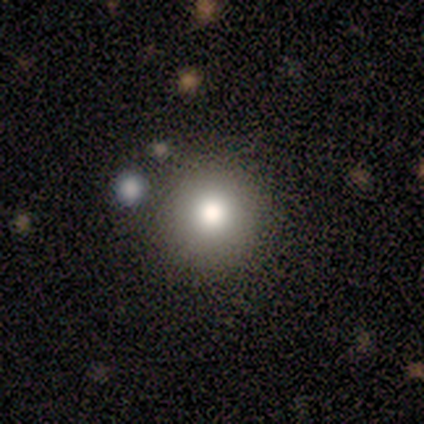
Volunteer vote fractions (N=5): Smooth or featured?
  - smooth: 60% *
  - star or artifact: 40%
  - featured or disk: 0%
How rounded?
  - round: 100% *
  - in between: 0%
  - cigar-shaped: 0%
Merging?
  - none: 67% *
  - minor disturbance: 33%
  - major disturbance: 0%
  - merger: 0%